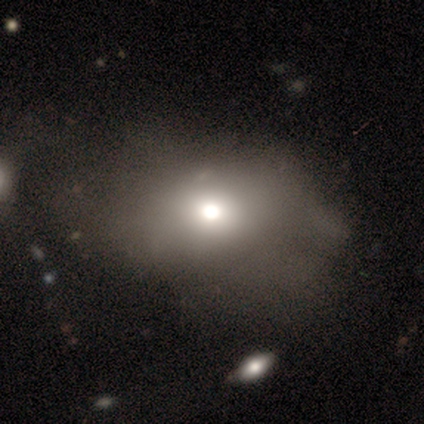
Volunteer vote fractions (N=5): Morphology: type=smooth (80%); roundness=round (50%, tied with in between); merging=none (50%).